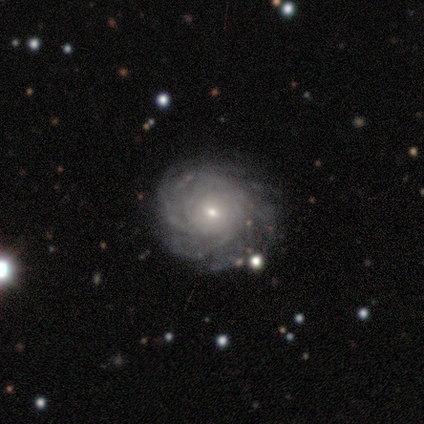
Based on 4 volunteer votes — A featured or disk galaxy (100%) with no bar (100%), more than 4 (67%) medium (67%) spiral arms (100%) and a small central bulge (100%). Merging: none (100%).